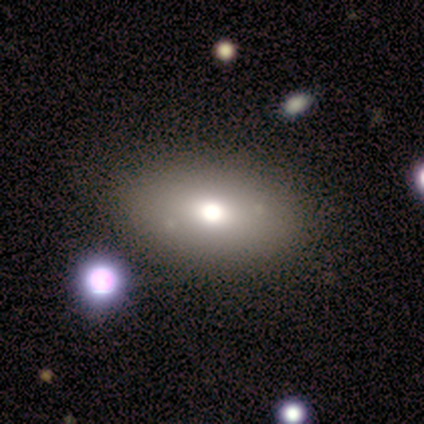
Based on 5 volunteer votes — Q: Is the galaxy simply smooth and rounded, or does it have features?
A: smooth — 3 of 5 (60%).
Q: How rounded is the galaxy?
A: in between — 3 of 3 (100%).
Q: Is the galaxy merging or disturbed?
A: none — 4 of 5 (80%).